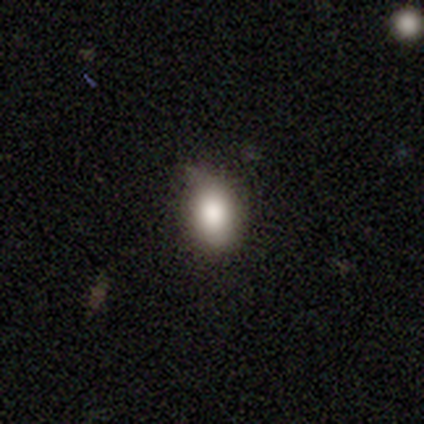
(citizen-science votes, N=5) Smooth or featured? 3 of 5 (60%) said smooth. How rounded? 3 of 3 (100%) said in between. Merging? 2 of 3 (67%) said none.